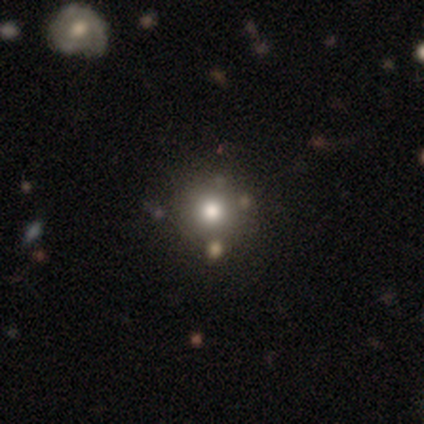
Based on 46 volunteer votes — Smooth or featured? 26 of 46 (57%) said smooth. How rounded? 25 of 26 (96%) said round. Merging? 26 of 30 (87%) said none.